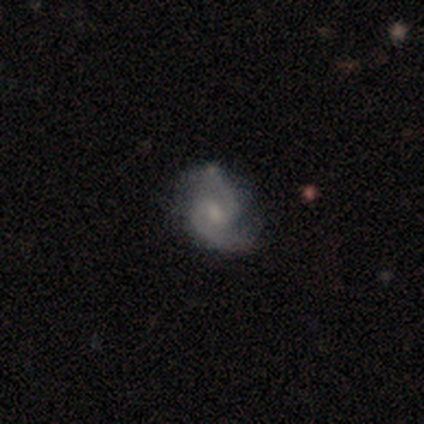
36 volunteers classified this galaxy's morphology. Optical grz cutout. It shows a featured or disk galaxy (78%) with a weak bar (64%), 2 (100%) medium (54%) spiral arms (100%) and a small central bulge (71%). Merging: none (64%).